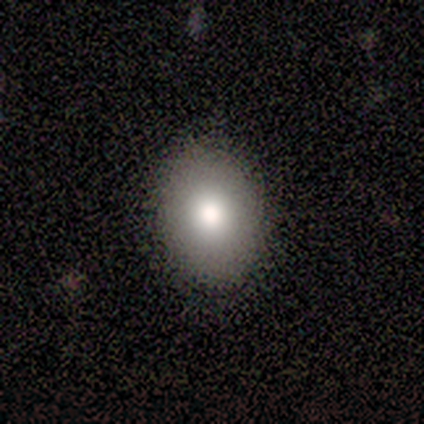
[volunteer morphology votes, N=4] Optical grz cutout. It shows a smooth galaxy with no disk features (75%) that is in between round and cigar-shaped (67%). Merging: none (100%).